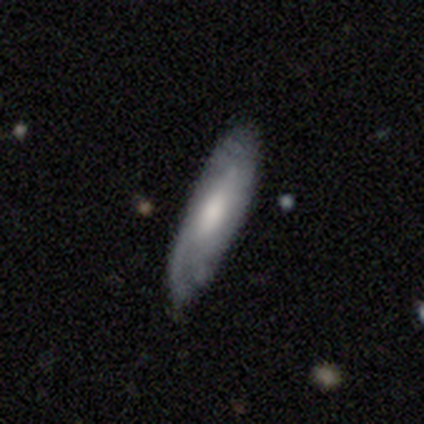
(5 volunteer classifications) This is clearly a featured or disk galaxy (80%). It is likely viewed edge-on (75%). Edge-on bulge: likely boxy (67%). Merging: clearly none (80%).